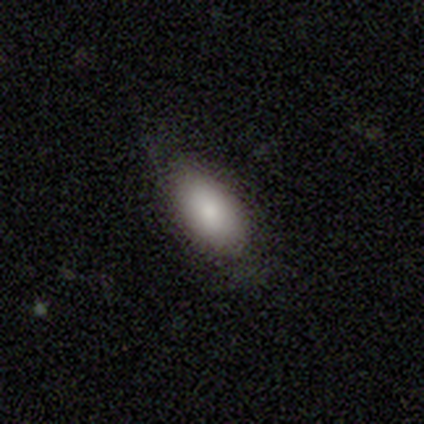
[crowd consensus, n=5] Q: Smooth or featured?
A: smooth (100%)
Q: How rounded?
A: in between (100%)
Q: Merging?
A: none (80%); runner-up: major disturbance (20%)